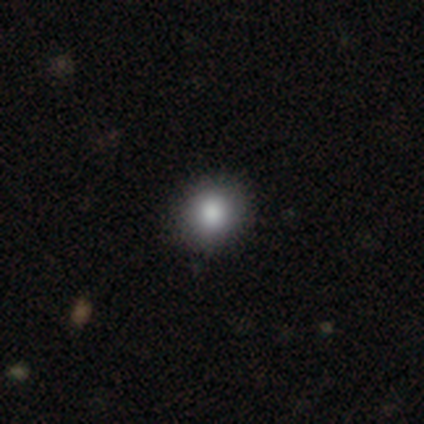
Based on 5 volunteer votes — Smooth or featured: smooth — 80% (featured or disk — 20%)
How rounded: round — 75% (in between — 25%)
Merging: none — 100%